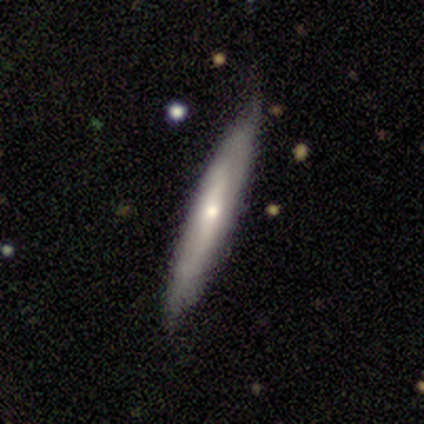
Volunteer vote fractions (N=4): Smooth or featured: smooth — 75% (featured or disk — 25%)
How rounded: cigar-shaped — 100%
Merging: none — 100%